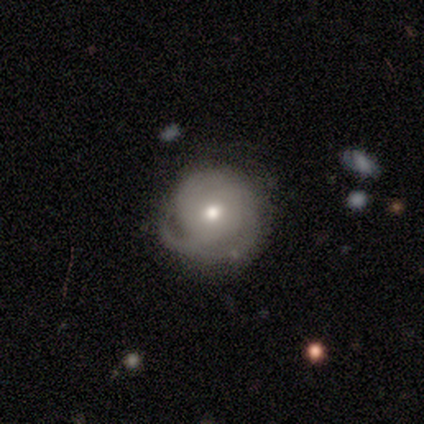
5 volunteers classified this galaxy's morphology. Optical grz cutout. It shows a featured or disk galaxy (80%) with no bar (100%), 1 (67%) tight (33%, tied with medium and loose) spiral arms (75%) and a moderate central bulge (50%, tied with small). Merging: none (100%).